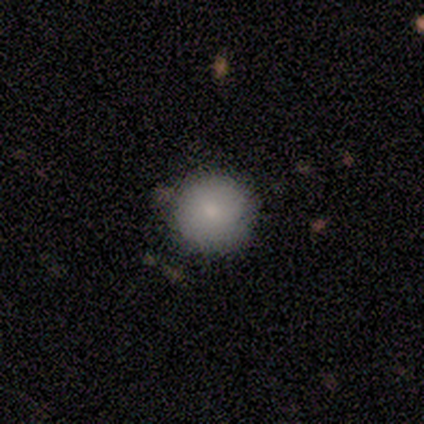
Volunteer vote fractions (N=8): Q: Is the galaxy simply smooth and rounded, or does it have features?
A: smooth — 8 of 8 (100%).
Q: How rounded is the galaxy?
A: round — 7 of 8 (88%).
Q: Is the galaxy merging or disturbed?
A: none — 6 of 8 (75%).